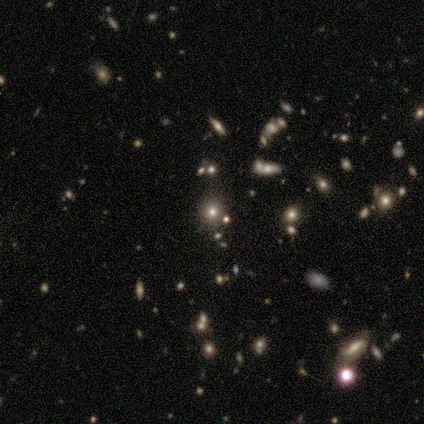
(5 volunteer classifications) smooth-or-featured: smooth: 40% (tied) | star or artifact: 40% (tied) | featured or disk: 20%
  how-rounded: round: 100% | in between: 0% | cigar-shaped: 0%
  merging: none: 100% | minor disturbance: 0% | major disturbance: 0% | merger: 0%